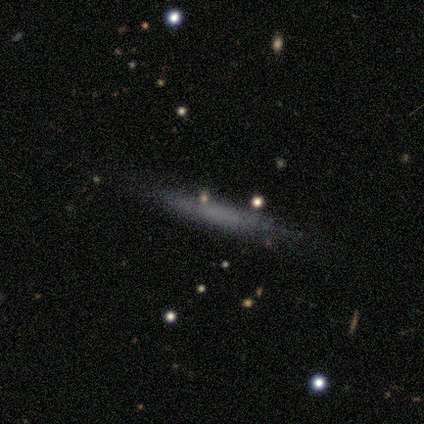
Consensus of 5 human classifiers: Smooth or featured?
  - smooth: 60% *
  - featured or disk: 20%
  - star or artifact: 20%
How rounded?
  - cigar-shaped: 100% *
  - round: 0%
  - in between: 0%
Merging?
  - none: 75% *
  - minor disturbance: 25%
  - major disturbance: 0%
  - merger: 0%